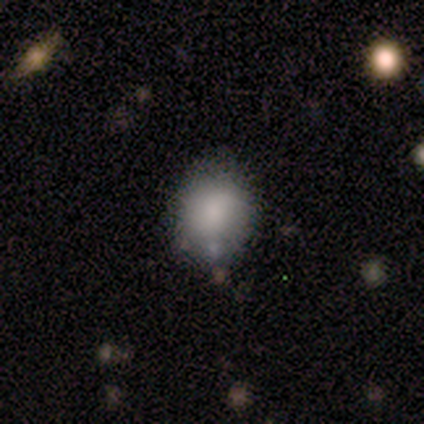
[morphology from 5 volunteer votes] Smooth or featured?
  - smooth: 100% *
  - featured or disk: 0%
  - star or artifact: 0%
How rounded?
  - round: 80% *
  - in between: 20%
  - cigar-shaped: 0%
Merging?
  - minor disturbance: 60% *
  - none: 40%
  - major disturbance: 0%
  - merger: 0%